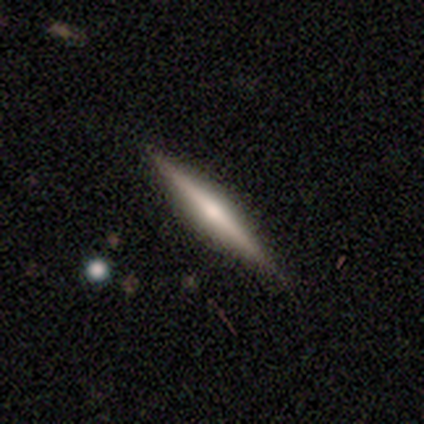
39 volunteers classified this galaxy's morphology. Q: Smooth or featured?
A: featured or disk (64%); runner-up: smooth (31%)
Q: Edge-on disk?
A: yes (100%)
Q: Edge-on bulge?
A: rounded (76%); runner-up: none (16%)
Q: Merging?
A: none (92%); runner-up: minor disturbance (5%)